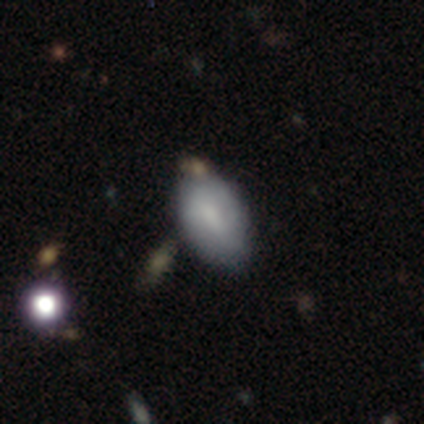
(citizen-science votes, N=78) Volunteers were most divided on "merging": none: 28%, minor disturbance: 12%, merger: 8%, major disturbance: 5%. More confident: how rounded — in between (93%); smooth or featured — smooth (76%).